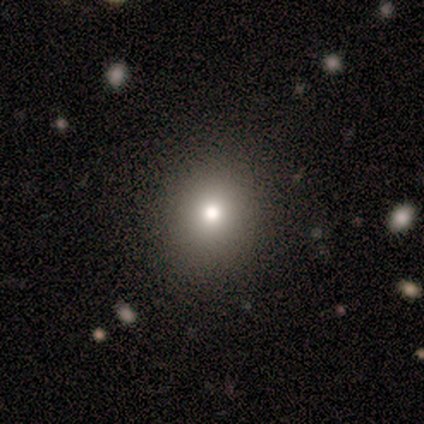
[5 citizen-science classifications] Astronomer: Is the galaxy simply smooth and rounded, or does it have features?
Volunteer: smooth — 100%.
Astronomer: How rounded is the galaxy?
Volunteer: round — 80%.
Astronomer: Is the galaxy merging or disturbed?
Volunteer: none — 100%.